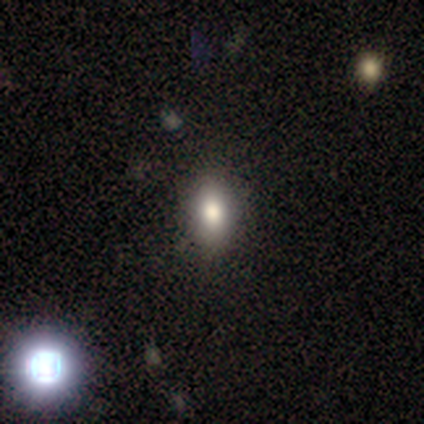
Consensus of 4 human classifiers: smooth-or-featured: smooth: 100% | featured or disk: 0% | star or artifact: 0%
  how-rounded: in between: 75% | round: 25% | cigar-shaped: 0%
  merging: none: 75% | minor disturbance: 25% | major disturbance: 0% | merger: 0%